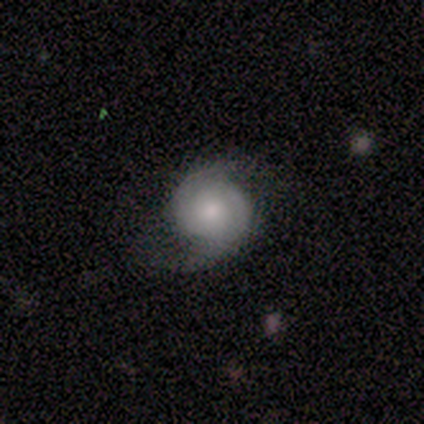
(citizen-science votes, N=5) This is clearly a featured or disk galaxy (80%). It is clearly not viewed edge-on (100%). Bar: possibly weak (50%, tied with no). Spiral arm pattern: clearly yes (100%). Spiral arm count: clearly 2 (100%). Spiral winding: possibly loose (50%). Central bulge: possibly moderate (50%). Merging: clearly none (100%).